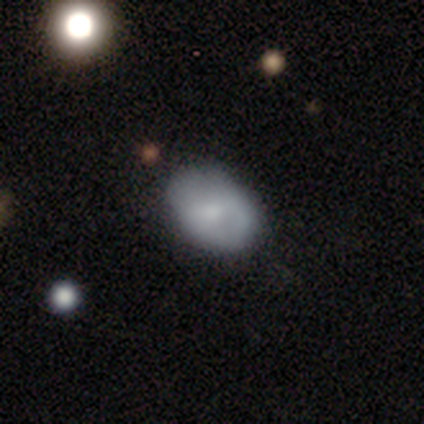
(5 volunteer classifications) smooth 80%, star or artifact 20%, featured or disk 0%. Down the decision tree: how rounded — in between (75%); merging — none (75%).